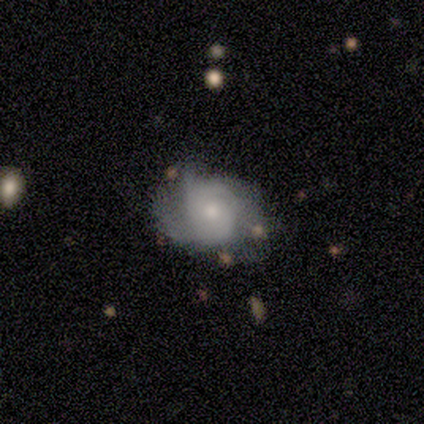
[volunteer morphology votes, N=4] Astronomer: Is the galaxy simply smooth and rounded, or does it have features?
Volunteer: featured or disk — 75%.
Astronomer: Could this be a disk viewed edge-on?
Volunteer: no — 100%.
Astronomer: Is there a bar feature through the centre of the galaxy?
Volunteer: no — 67%.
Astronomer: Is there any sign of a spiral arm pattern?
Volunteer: yes — 67%.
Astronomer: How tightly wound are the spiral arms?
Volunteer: tight — 50%, tied with loose at 50%.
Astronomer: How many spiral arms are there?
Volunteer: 3 — 50%, tied with more than 4 at 50%.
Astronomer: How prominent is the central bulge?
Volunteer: moderate — 100%.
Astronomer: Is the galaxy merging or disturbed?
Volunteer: none — 100%.